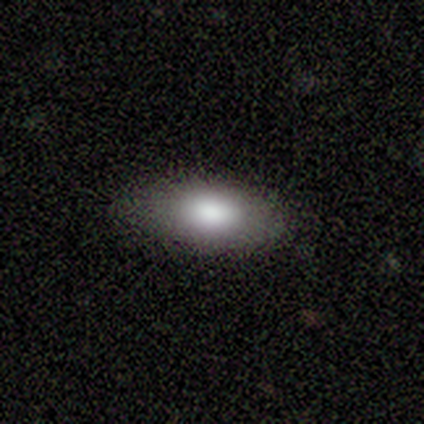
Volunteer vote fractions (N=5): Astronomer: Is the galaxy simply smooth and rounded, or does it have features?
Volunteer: smooth — 100%.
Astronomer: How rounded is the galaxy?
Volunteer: in between — 100%.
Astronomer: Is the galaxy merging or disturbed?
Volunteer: none — 100%.